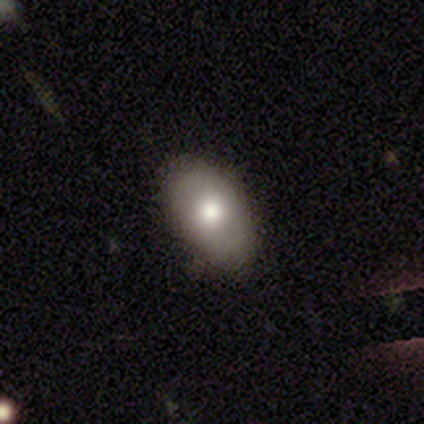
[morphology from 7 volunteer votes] Smooth or featured?
  - smooth: 71% *
  - featured or disk: 29%
  - star or artifact: 0%
How rounded?
  - in between: 100% *
  - round: 0%
  - cigar-shaped: 0%
Merging?
  - none: 86% *
  - minor disturbance: 14%
  - major disturbance: 0%
  - merger: 0%